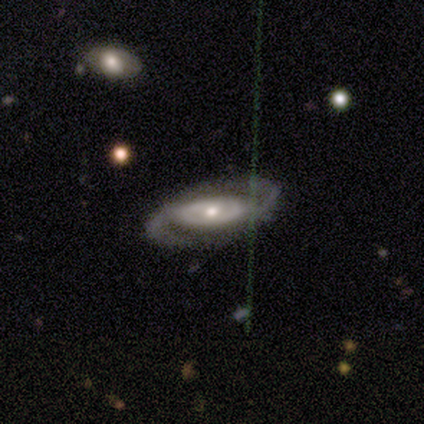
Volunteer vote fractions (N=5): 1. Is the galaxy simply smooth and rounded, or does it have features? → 100% featured or disk, 0% smooth, 0% star or artifact.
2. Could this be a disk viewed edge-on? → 100% no, 0% yes.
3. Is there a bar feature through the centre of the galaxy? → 40% strong (tied), 40% no (tied), 20% weak.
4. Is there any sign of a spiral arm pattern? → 100% yes, 0% no.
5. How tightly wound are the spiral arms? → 80% medium, 20% loose, 0% tight.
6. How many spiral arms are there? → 100% 2, 0% 1, 0% 3, 0% 4, 0% more than 4, 0% can't tell.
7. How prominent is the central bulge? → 60% small, 40% moderate, 0% dominant, 0% large, 0% none.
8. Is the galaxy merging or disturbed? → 60% none, 40% minor disturbance, 0% major disturbance, 0% merger.